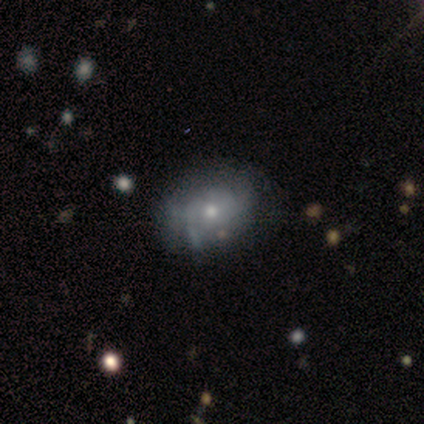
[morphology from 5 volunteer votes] smooth-or-featured: smooth: 60% | featured or disk: 40% | star or artifact: 0%
  how-rounded: in between: 67% | round: 33% | cigar-shaped: 0%
  merging: none: 60% | minor disturbance: 20% | major disturbance: 20% | merger: 0%